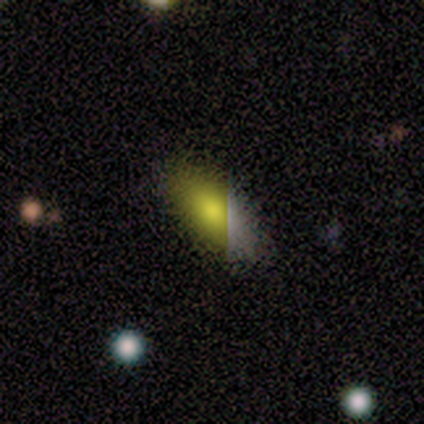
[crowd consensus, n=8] Overall: smooth (62%; featured or disk 38%). How rounded: in between (80%). Merging: none (88%).